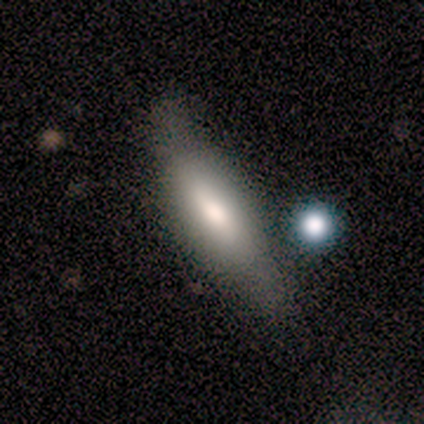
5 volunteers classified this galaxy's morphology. Volunteers were most divided on "smooth or featured": smooth: 60%, featured or disk: 40%, star or artifact: 0%. More confident: how rounded — cigar-shaped (100%); merging — minor disturbance (80%).